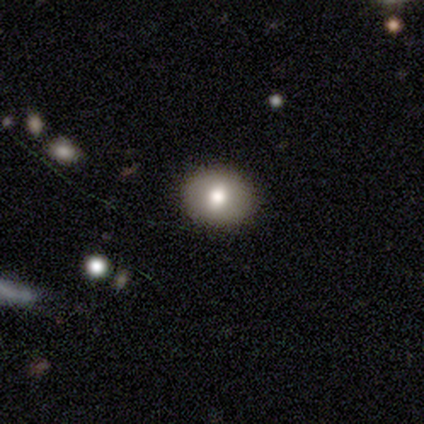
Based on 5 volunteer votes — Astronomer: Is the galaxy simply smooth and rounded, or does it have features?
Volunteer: smooth — 100%.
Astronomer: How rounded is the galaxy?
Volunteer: round — 80%.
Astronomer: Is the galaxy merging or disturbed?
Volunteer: none — 100%.